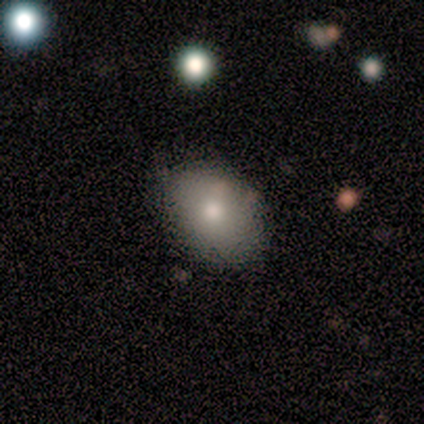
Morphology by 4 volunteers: smooth 100%, featured or disk 0%, star or artifact 0%. Down the decision tree: how rounded — round (50%, tied with in between); merging — none (50%).